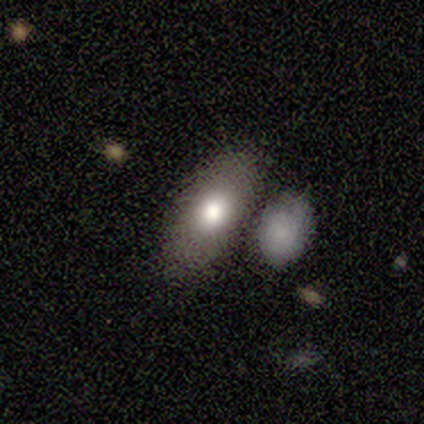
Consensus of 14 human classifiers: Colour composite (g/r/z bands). It shows a smooth galaxy with no disk features (100%) that is in between round and cigar-shaped (100%). Merging: none (79%).